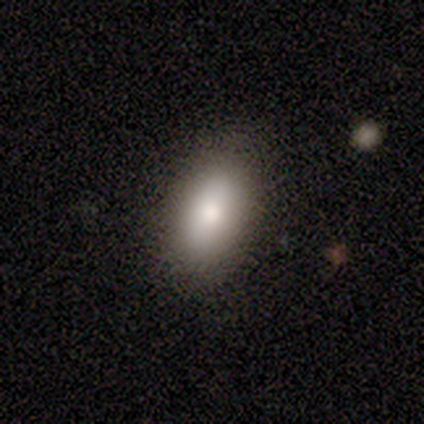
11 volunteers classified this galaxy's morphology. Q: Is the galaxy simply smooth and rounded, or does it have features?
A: smooth — 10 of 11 (91%).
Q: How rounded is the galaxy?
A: in between — 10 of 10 (100%).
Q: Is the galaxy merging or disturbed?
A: none — 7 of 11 (64%).